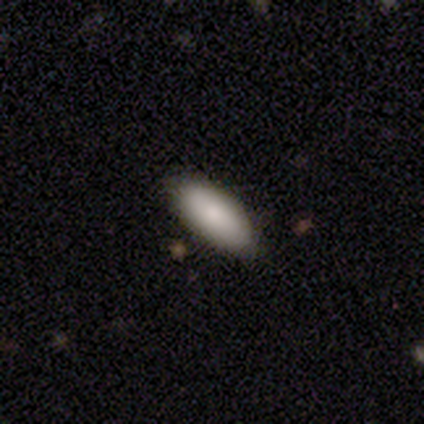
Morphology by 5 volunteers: Smooth or featured? smooth (60%)
How rounded? in between (67%)
Merging? none (75%)